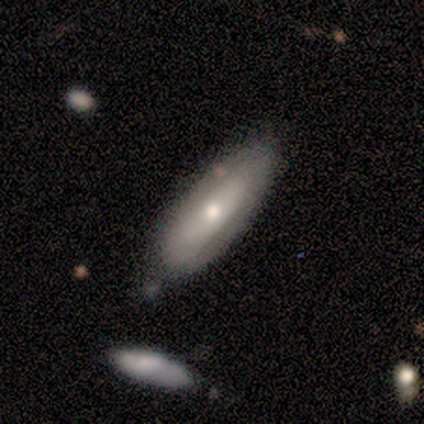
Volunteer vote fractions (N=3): Overall: smooth (67%; featured or disk 33%). How rounded: cigar-shaped (100%). Merging: none (67%; minor disturbance 33%).